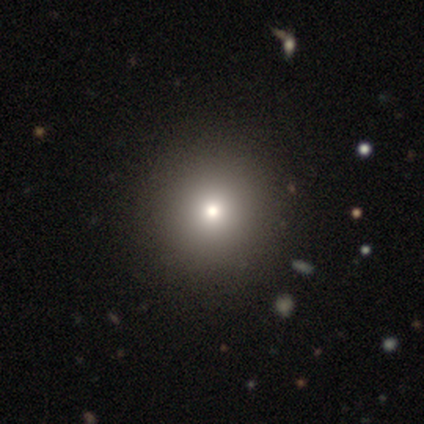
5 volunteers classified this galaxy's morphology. smooth 100%, featured or disk 0%, star or artifact 0%. Down the decision tree: how rounded — round (100%); merging — none (100%).